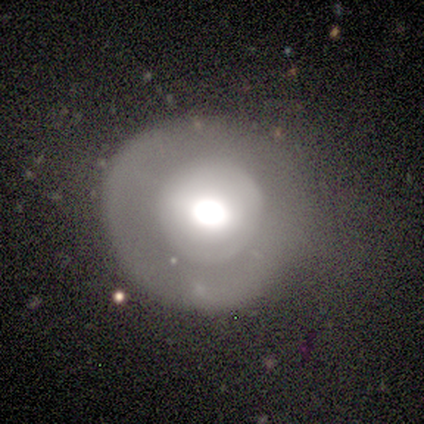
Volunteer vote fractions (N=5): Volunteers were most divided on "bar" (2-way tie): strong: 50%, no: 50%, weak: 0%; "bulge size" (2-way tie): large: 50%, moderate: 50%, dominant: 0%, small: 0%, none: 0%. More confident: spiral arms — no (100%); merging — none (100%); edge-on disk — no (67%); smooth or featured — featured or disk (60%).